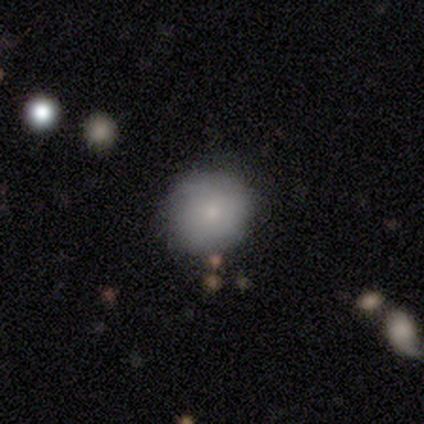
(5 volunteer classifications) Smooth or featured? 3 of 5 (60%) said featured or disk. Edge-on disk? 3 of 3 (100%) said no. Bar? 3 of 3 (100%) said no. Spiral arms? 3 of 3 (100%) said no. Bulge size? 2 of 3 (67%) said small. Merging? 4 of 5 (80%) said none.